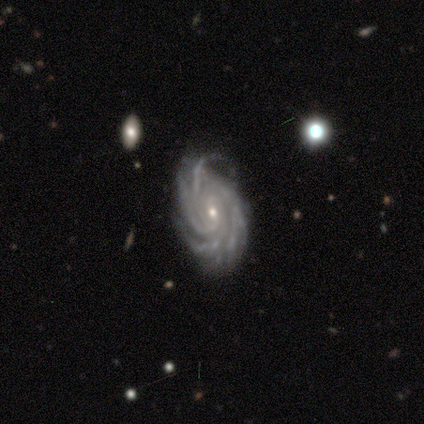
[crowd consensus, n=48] Q: Smooth or featured?
A: featured or disk (94%); runner-up: smooth (4%)
Q: Edge-on disk?
A: no (98%); runner-up: yes (2%)
Q: Bar?
A: no (50%); runner-up: weak (43%)
Q: Spiral arms?
A: yes (98%); runner-up: no (2%)
Q: Spiral winding?
A: tight (79%); runner-up: medium (16%)
Q: Spiral arm count?
A: more than 4 (42%); runner-up: 4 (37%)
Q: Bulge size?
A: small (73%); runner-up: moderate (27%)
Q: Merging?
A: none (60%); runner-up: minor disturbance (34%)